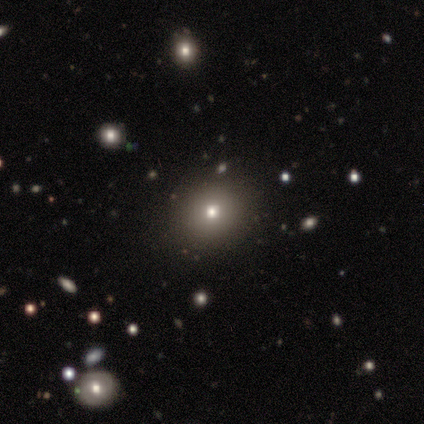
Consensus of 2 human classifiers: Morphology: type=smooth (100%); roundness=round (100%); merging=none (50%, tied with minor disturbance).